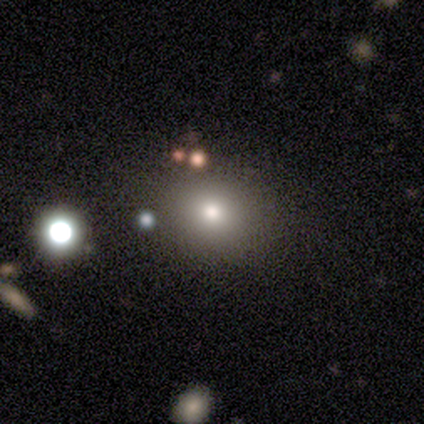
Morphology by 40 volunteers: smooth-or-featured: smooth: 82% | featured or disk: 15% | star or artifact: 2%
  how-rounded: round: 85% | in between: 15% | cigar-shaped: 0%
  merging: none: 85% | minor disturbance: 5% | major disturbance: 5% | merger: 5%